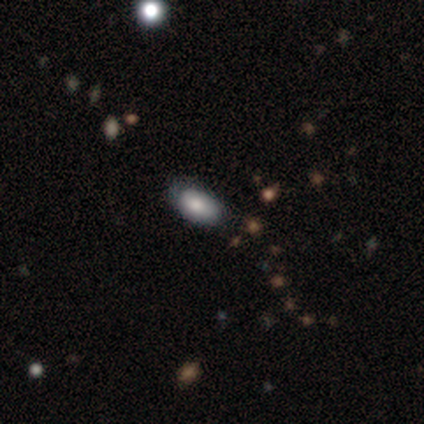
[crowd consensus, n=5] This appears to be a smooth galaxy with no disk features (60%) that is in between round and cigar-shaped (100%). Merging: none (75%).